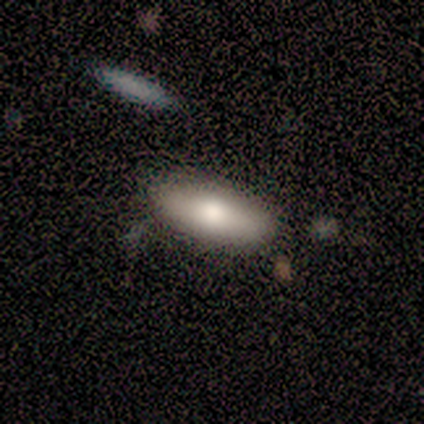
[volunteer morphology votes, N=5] A smooth galaxy with no disk features (40%, tied with featured or disk) that is in between round and cigar-shaped (100%). Merging: none (100%).